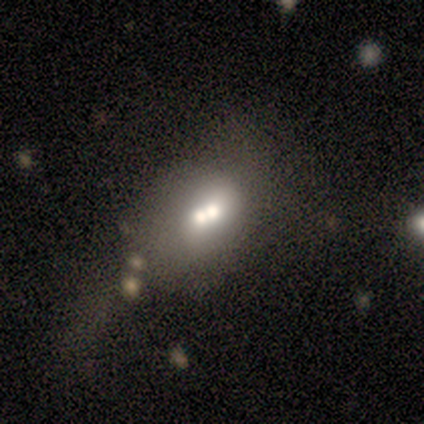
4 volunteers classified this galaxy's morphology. Smooth or featured?
  - smooth: 75% *
  - star or artifact: 25%
  - featured or disk: 0%
How rounded?
  - in between: 100% *
  - round: 0%
  - cigar-shaped: 0%
Merging?
  - merger: 67% *
  - none: 33%
  - minor disturbance: 0%
  - major disturbance: 0%